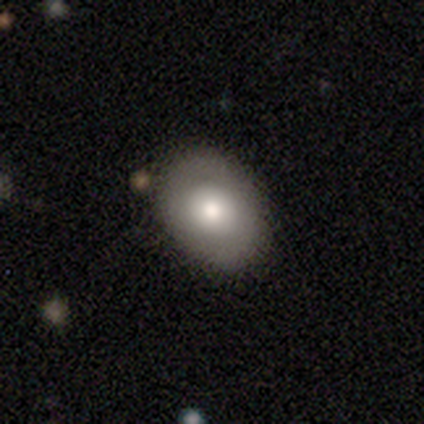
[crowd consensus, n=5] Overall: smooth (60%; featured or disk 40%). How rounded: in between (100%). Merging: none (100%).